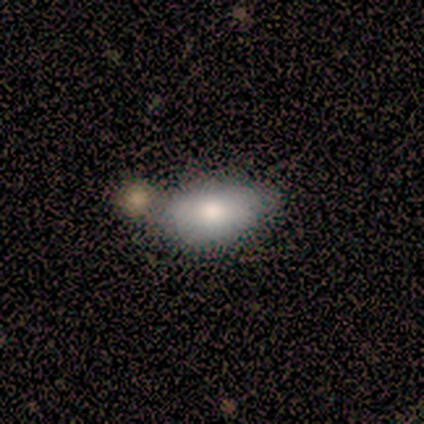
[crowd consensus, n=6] Smooth or featured? 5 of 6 (83%) said smooth. How rounded? 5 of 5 (100%) said in between. Merging? 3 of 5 (60%) said none.